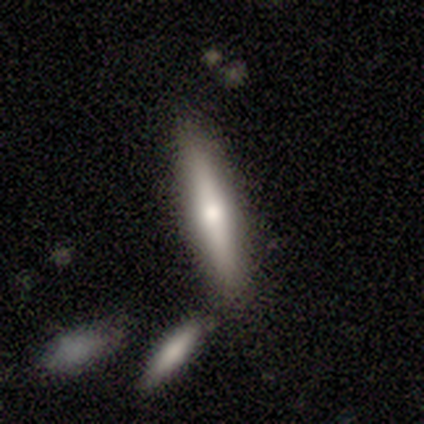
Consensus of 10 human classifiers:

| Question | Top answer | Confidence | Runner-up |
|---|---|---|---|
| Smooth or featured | smooth | 60% | featured or disk (40%) |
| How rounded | cigar-shaped | 67% | in between (33%) |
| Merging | none | 90% | merger (10%) |